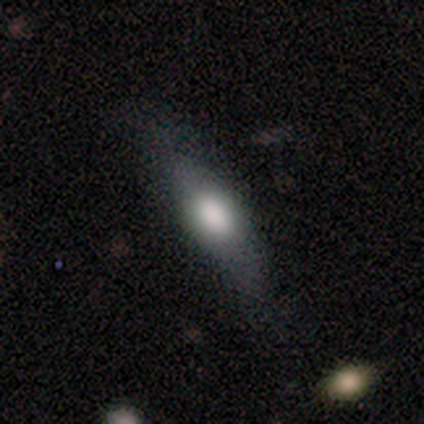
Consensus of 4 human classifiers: This appears to be a featured or disk galaxy (75%) viewed edge-on (100%) with a rounded central bulge (100%). Merging: none (75%).